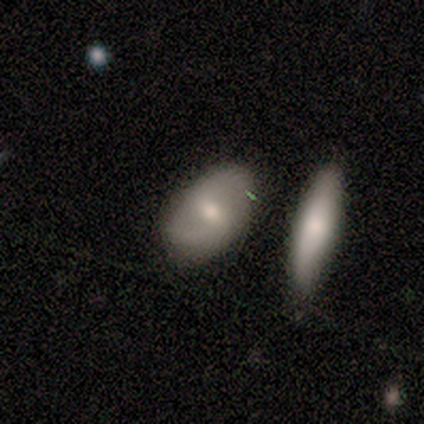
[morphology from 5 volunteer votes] smooth 80%, featured or disk 20%, star or artifact 0%. Down the decision tree: how rounded — in between (100%); merging — none (80%).